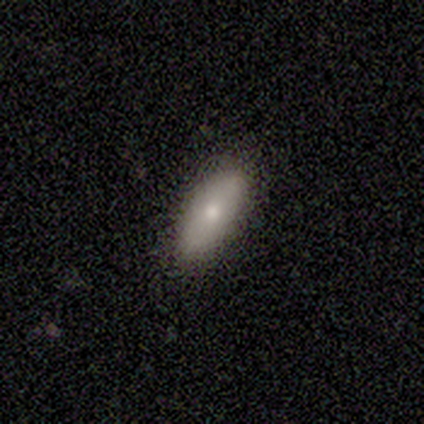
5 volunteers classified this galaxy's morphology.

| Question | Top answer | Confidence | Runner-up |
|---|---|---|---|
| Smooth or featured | smooth | 60% | featured or disk (40%) |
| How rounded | in between | 100% | — |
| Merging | none | 100% | — |